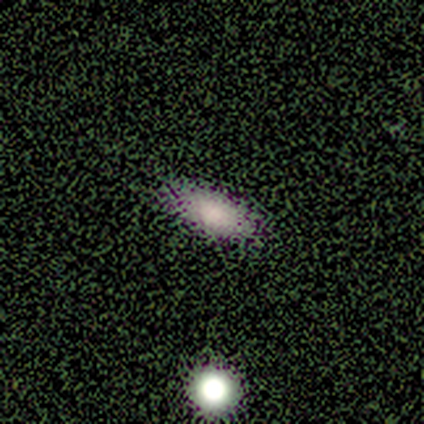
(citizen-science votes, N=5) A smooth galaxy with no disk features (60%) that is in between round and cigar-shaped (100%). Merging: none (100%).